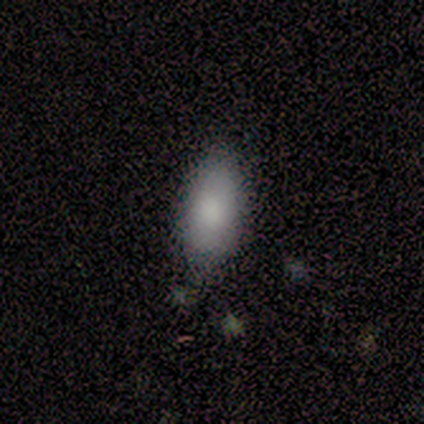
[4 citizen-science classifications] Smooth or featured: smooth — 75% (featured or disk — 25%)
How rounded: in between — 100%
Merging: none — 75% (minor disturbance — 25%)